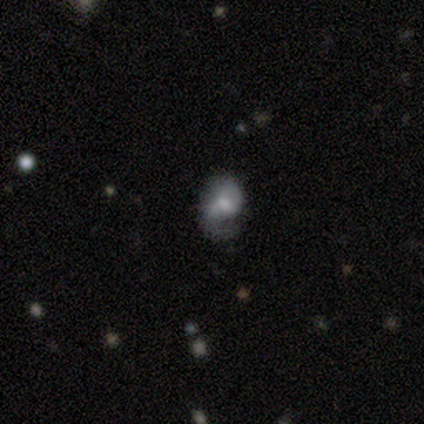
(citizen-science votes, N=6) smooth_or_featured: smooth (p=0.50) [tied with: featured or disk p=0.50]
how_rounded: in between (p=0.67) [alt: round p=0.33]
merging: none (p=0.50) [alt: major disturbance p=0.33]